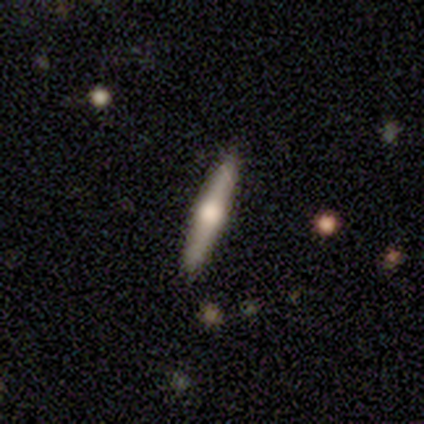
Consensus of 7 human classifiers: This appears to be a smooth galaxy with no disk features (57%) that is cigar-shaped (50%). Merging: none (86%).